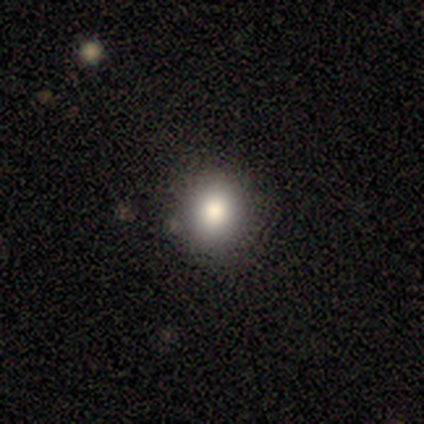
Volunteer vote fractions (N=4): smooth-or-featured: smooth: 75% | featured or disk: 25% | star or artifact: 0%
  how-rounded: round: 100% | in between: 0% | cigar-shaped: 0%
  merging: none: 75% | merger: 25% | minor disturbance: 0% | major disturbance: 0%